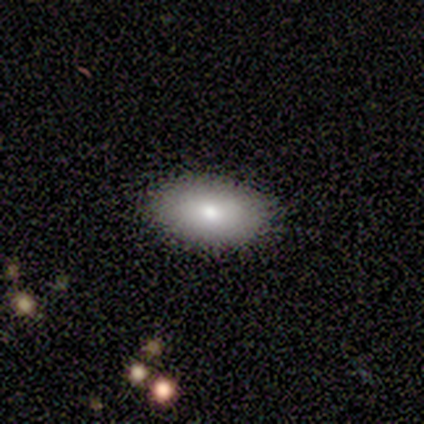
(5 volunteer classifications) Smooth or featured? 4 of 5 (80%) said smooth. How rounded? 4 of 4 (100%) said in between. Merging? 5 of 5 (100%) said none.